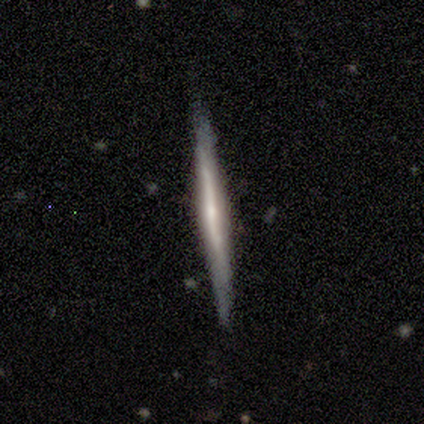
Smooth or featured: featured or disk — 67% (smooth — 21%)
Edge-on disk: yes — 100%
Edge-on bulge: rounded — 55% (none — 41%)
Merging: none — 93% (minor disturbance — 7%)